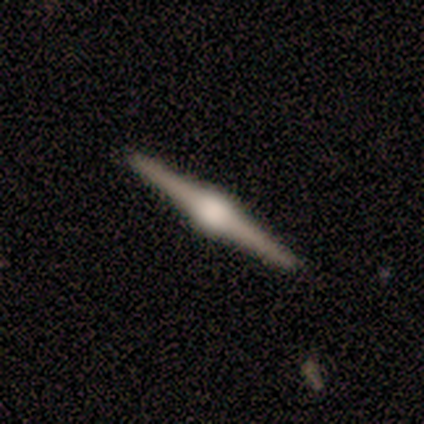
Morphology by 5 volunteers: Volunteers were most divided on "edge-on bulge": rounded: 80%, boxy: 20%, none: 0%. More confident: smooth or featured — featured or disk (100%); edge-on disk — yes (100%); merging — none (100%).